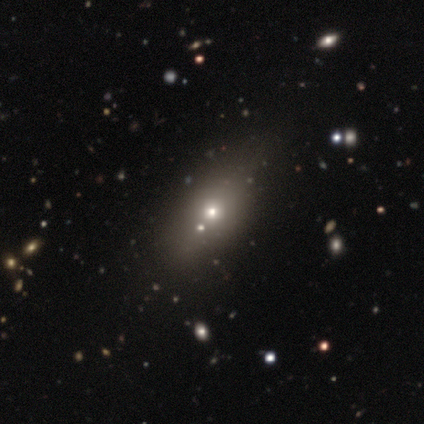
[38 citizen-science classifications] A smooth galaxy with no disk features (66%) that is in between round and cigar-shaped (76%). Merging: none (43%).